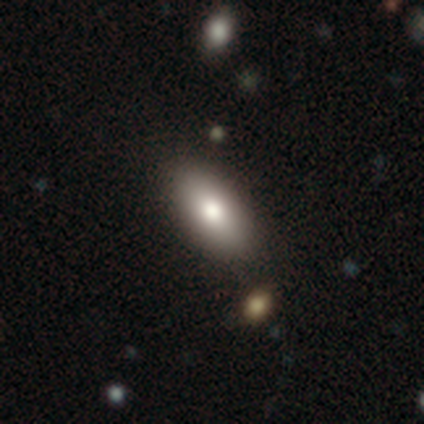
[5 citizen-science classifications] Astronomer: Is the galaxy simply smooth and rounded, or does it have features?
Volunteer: smooth — 80%.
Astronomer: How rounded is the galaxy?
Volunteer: in between — 100%.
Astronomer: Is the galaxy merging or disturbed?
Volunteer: none — 75%.